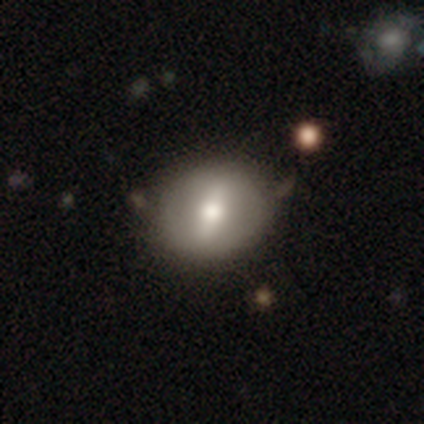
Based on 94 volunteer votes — This is possibly a smooth galaxy (46%). How rounded: likely round (77%). Merging: likely none (76%).